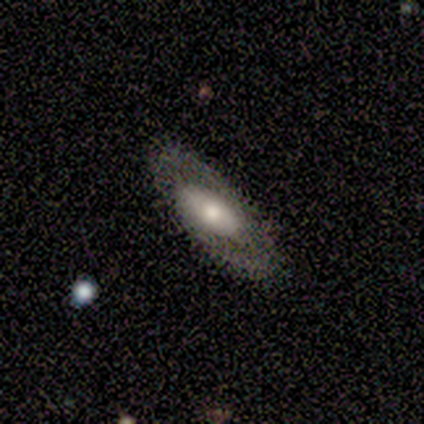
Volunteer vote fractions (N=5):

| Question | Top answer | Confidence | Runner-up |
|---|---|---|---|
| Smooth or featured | featured or disk | 60% | smooth (20%) |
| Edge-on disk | yes | 67% | no (33%) |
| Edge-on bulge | rounded | 100% | — |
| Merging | none | 100% | — |